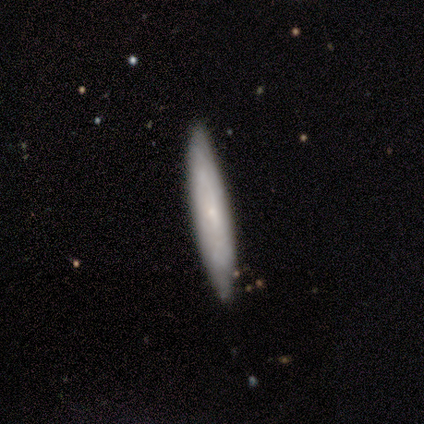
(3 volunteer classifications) This appears to be a smooth galaxy with no disk features (67%) that is cigar-shaped (100%). Merging: none (100%).